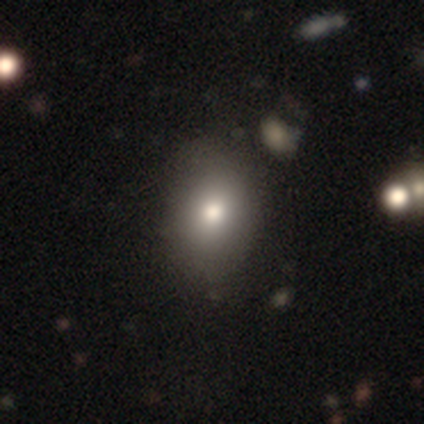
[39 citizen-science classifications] A smooth galaxy with no disk features (72%) that is in between round and cigar-shaped (64%).

Vote fractions:
- Smooth or featured? smooth: 72% / featured or disk: 21% / star or artifact: 8%
- How rounded? in between: 64% / round: 36% / cigar-shaped: 0%
- Merging? none: 64% / minor disturbance: 6% / major disturbance: 3% / merger: 3%